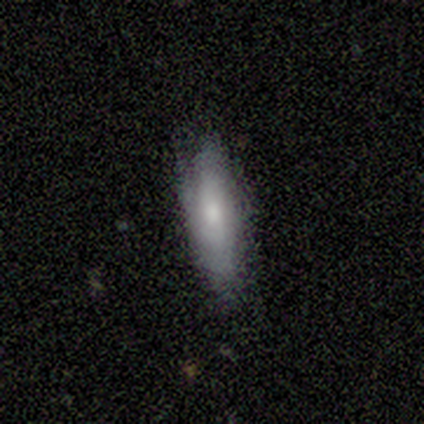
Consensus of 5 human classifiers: A smooth galaxy with no disk features (100%) that is cigar-shaped (60%). Merging: none (80%).